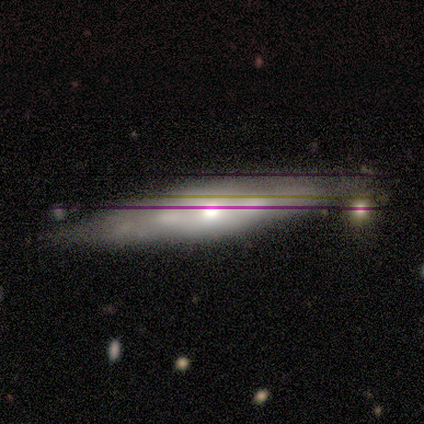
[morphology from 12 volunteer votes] Overall: smooth (42%, tied with featured or disk). How rounded: cigar-shaped (60%; round 20%). Merging: none (60%; minor disturbance 20%).